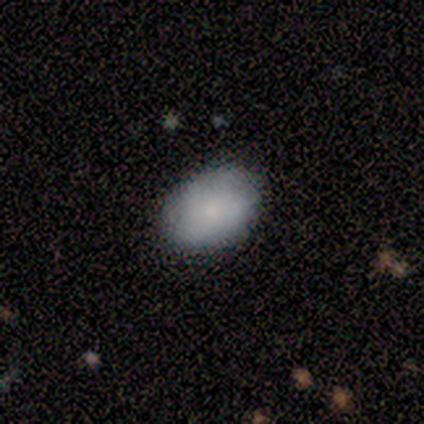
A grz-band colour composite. It shows a smooth galaxy with no disk features (100%) that is in between round and cigar-shaped (100%). Merging: none (100%).